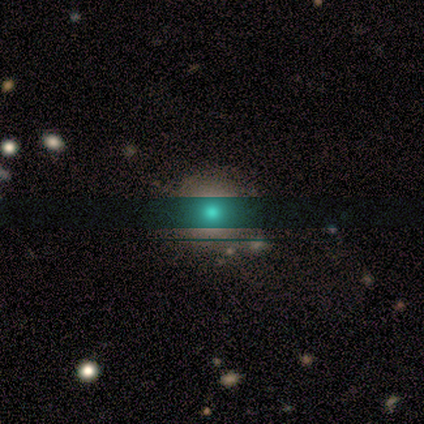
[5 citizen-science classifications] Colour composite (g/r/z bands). It shows a smooth galaxy with no disk features (60%) that is round (100%). Merging: none (75%).